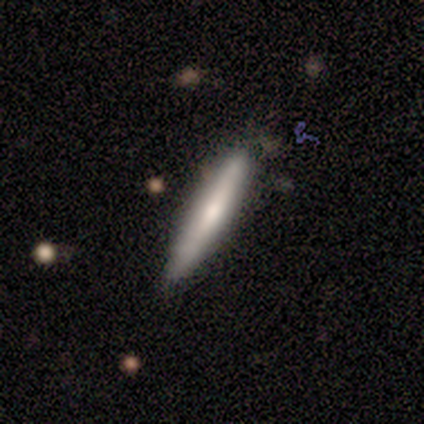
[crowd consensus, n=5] smooth-or-featured: smooth: 40% (tied) | featured or disk: 40% (tied) | star or artifact: 20%
  how-rounded: cigar-shaped: 100% | round: 0% | in between: 0%
  merging: none: 50% (tied) | minor disturbance: 50% (tied) | major disturbance: 0% | merger: 0%